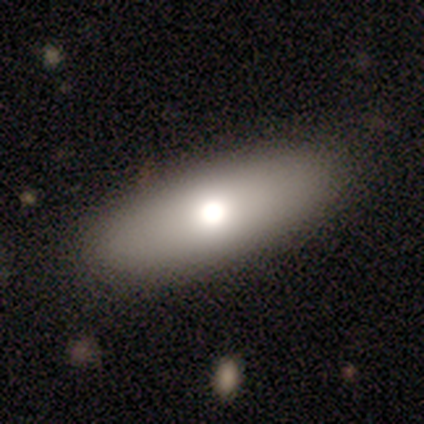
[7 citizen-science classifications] This is clearly a smooth galaxy (86%). How rounded: likely in between (67%). Merging: clearly none (100%).